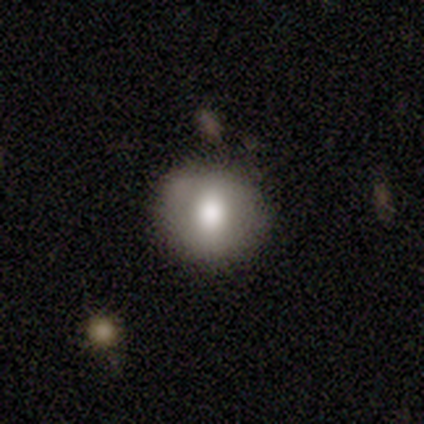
Smooth or featured?
  - smooth: 86% *
  - star or artifact: 14%
  - featured or disk: 0%
How rounded?
  - round: 67% *
  - in between: 33%
  - cigar-shaped: 0%
Merging?
  - minor disturbance: 67% *
  - none: 33%
  - major disturbance: 0%
  - merger: 0%